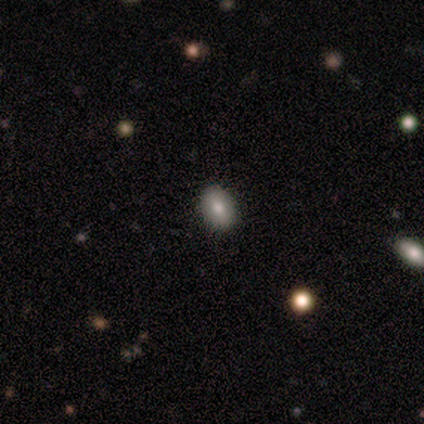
Morphology: type=smooth (100%); roundness=round (50%, tied with in between); merging=none (100%).